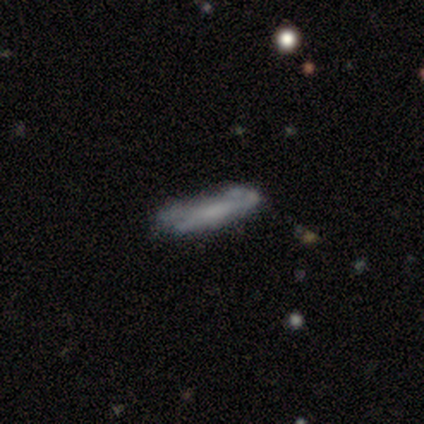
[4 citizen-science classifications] This appears to be a smooth galaxy with no disk features (50%) that is in between round and cigar-shaped (50%, tied with cigar-shaped). Merging: minor disturbance (100%).